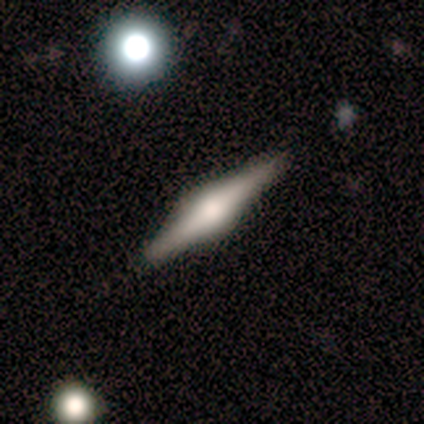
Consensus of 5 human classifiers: Overall: featured or disk (100%). Edge-on disk: yes (100%). Edge-on bulge: rounded (80%). Merging: none (100%).